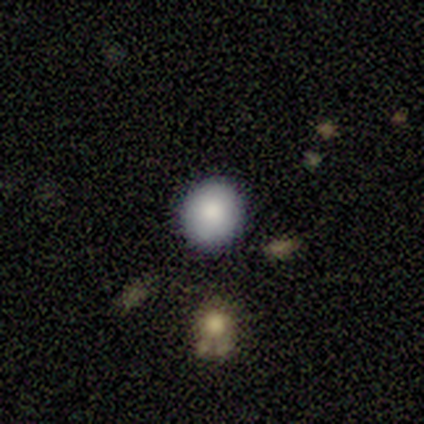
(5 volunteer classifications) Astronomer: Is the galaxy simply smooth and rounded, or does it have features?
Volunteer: smooth — 100%.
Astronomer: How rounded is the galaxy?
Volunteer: round — 80%.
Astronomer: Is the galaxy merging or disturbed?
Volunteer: none — 100%.